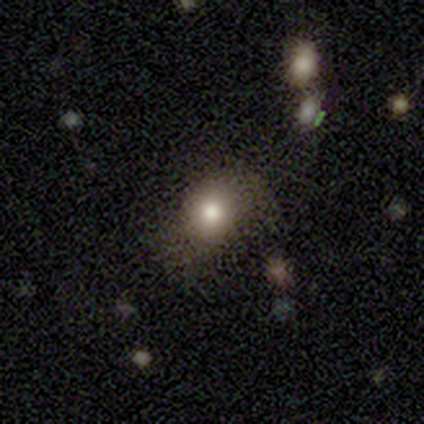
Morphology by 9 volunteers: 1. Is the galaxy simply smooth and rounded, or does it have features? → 78% smooth, 22% featured or disk, 0% star or artifact.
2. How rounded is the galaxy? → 43% round (tied), 43% in between (tied), 14% cigar-shaped.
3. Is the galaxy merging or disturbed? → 67% none, 22% major disturbance, 11% minor disturbance, 0% merger.